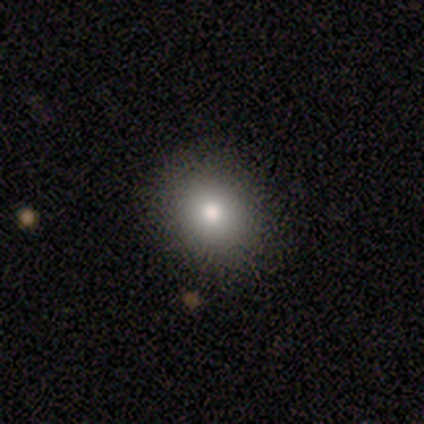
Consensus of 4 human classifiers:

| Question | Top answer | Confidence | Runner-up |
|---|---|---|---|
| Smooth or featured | smooth | 50% | featured or disk (25%) |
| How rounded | round | 100% | — |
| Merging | none | 67% | minor disturbance (33%) |